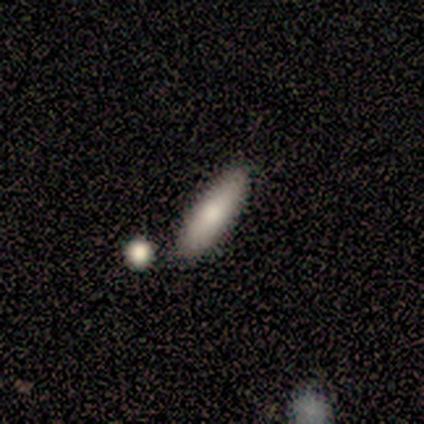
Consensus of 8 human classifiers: Volunteers were most divided on "how rounded": cigar-shaped: 67%, in between: 33%, round: 0%. More confident: smooth or featured — smooth (75%); merging — none (75%).